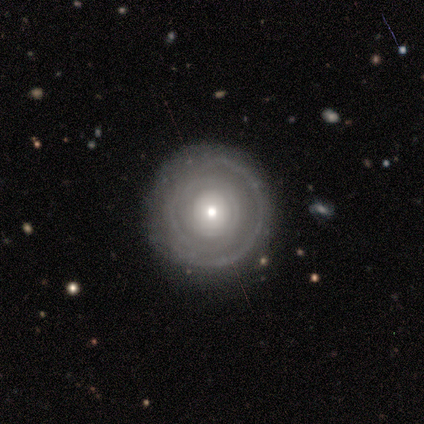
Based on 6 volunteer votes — A featured or disk galaxy (83%) with no bar (100%), no spiral arms (60%) and a small central bulge (100%). Merging: none (100%).